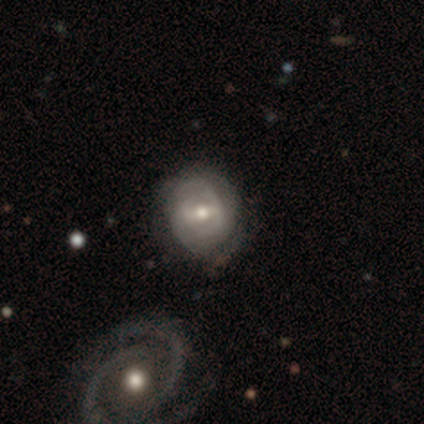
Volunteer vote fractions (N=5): A featured or disk galaxy (80%) with a weak bar (75%), tight (67%) spiral arms (75%) and a moderate central bulge (100%). Merging: none (80%).